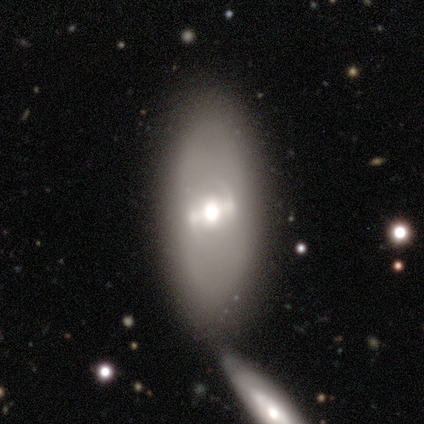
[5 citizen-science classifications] Smooth or featured? 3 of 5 (60%) said featured or disk. Edge-on disk? 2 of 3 (67%) said yes. Edge-on bulge? 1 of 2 (50%, tied with rounded) said boxy. Merging? 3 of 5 (60%) said none.